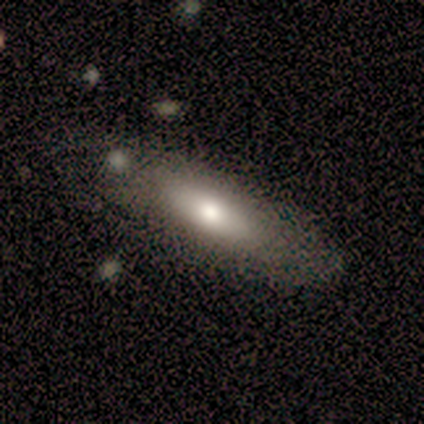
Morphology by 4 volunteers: Smooth or featured? 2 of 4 (50%, tied with featured or disk) said smooth. How rounded? 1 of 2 (50%, tied with cigar-shaped) said in between. Merging? 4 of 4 (100%) said none.